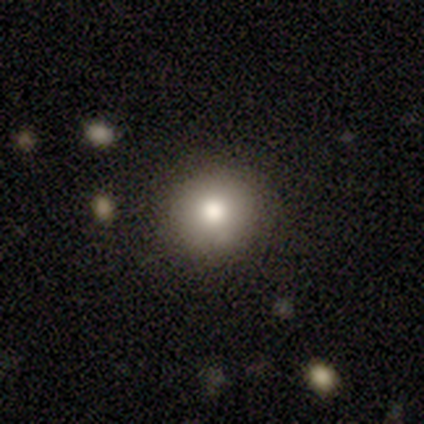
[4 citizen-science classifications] This appears to be a smooth galaxy with no disk features (75%) that is round (100%). Merging: none (50%, tied with minor disturbance).